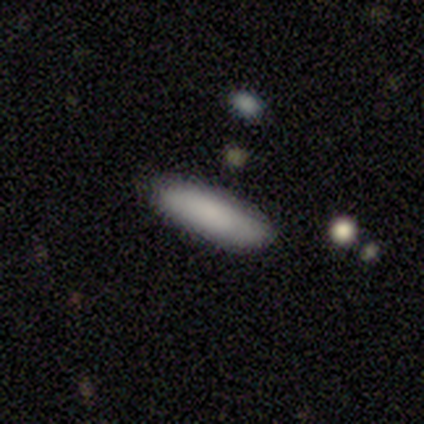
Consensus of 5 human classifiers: A smooth galaxy with no disk features (80%) that is in between round and cigar-shaped (75%).

Vote fractions:
- Smooth or featured? smooth: 80% / featured or disk: 20% / star or artifact: 0%
- How rounded? in between: 75% / cigar-shaped: 25% / round: 0%
- Merging? none: 100% / minor disturbance: 0% / major disturbance: 0% / merger: 0%